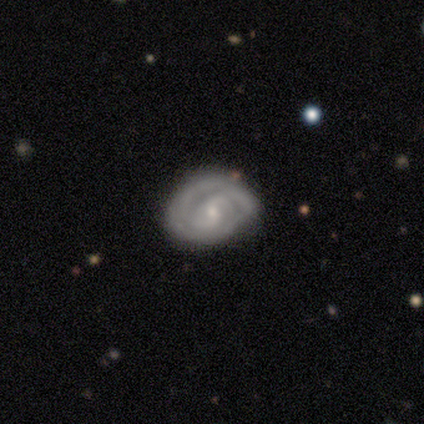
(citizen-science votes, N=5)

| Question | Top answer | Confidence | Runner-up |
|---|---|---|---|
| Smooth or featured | featured or disk | 80% | smooth (20%) |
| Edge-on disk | no | 100% | — |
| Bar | weak | 50% | tied: no (50%) |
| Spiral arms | yes | 75% | no (25%) |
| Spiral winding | tight | 67% | medium (33%) |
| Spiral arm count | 2 | 67% | 3 (33%) |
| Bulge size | small | 75% | moderate (25%) |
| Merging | none | 80% | minor disturbance (20%) |